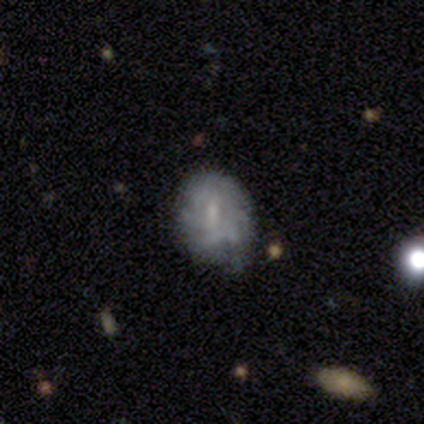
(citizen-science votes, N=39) Morphology: type=featured or disk (62%); edge-on=no (100%); bar=weak (54%); spiral arms=yes (79%); winding=tight (58%); arm count=can't tell (53%); bulge=small (58%); merging=none (54%).